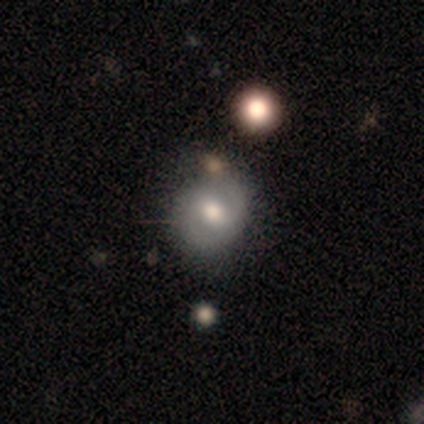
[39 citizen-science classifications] Smooth or featured? 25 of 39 (64%) said featured or disk. Edge-on disk? 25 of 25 (100%) said no. Bar? 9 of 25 (36%, tied with no) said weak. Spiral arms? 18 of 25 (72%) said yes. Spiral winding? 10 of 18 (56%) said tight. Spiral arm count? 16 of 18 (89%) said 2. Bulge size? 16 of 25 (64%) said moderate. Merging? 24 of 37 (65%) said none.